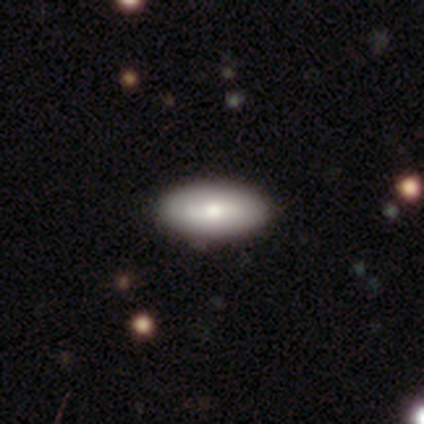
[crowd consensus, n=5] Smooth or featured? 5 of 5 (100%) said smooth. How rounded? 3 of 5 (60%) said in between. Merging? 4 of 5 (80%) said none.